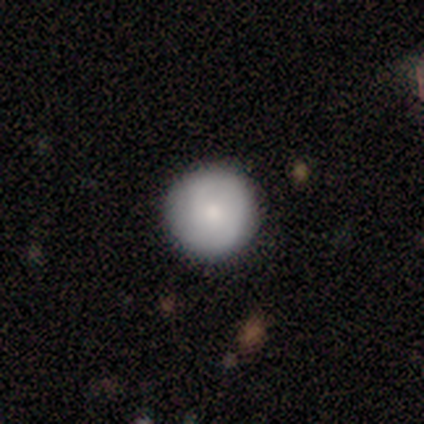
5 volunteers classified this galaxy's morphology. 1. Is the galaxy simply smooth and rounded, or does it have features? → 60% smooth, 40% featured or disk, 0% star or artifact.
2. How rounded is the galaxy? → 100% round, 0% in between, 0% cigar-shaped.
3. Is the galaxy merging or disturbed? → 100% none, 0% minor disturbance, 0% major disturbance, 0% merger.